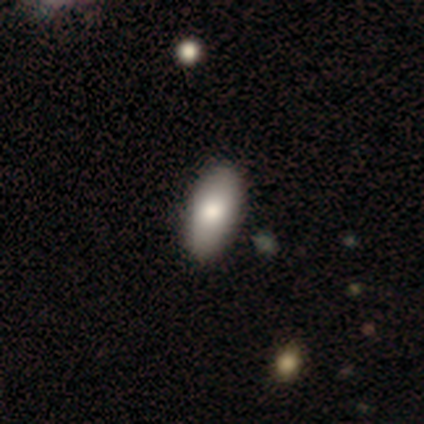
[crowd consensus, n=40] Smooth or featured? 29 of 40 (72%) said smooth. How rounded? 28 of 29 (97%) said in between. Merging? 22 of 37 (59%) said none.